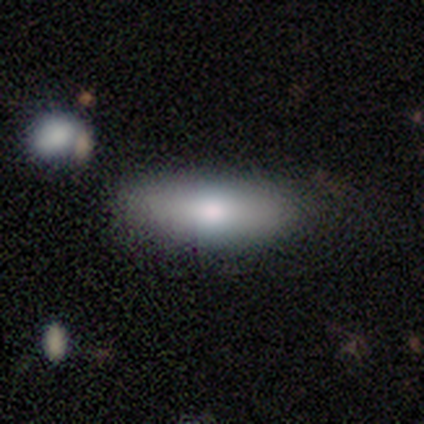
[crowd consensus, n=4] This is clearly a smooth galaxy (100%). How rounded: likely in between (75%). Merging: likely none (75%).